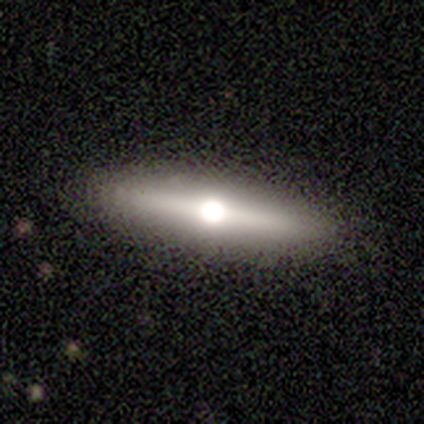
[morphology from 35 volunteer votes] A featured or disk galaxy (63%) viewed edge-on (100%) with a rounded central bulge (95%).

Vote fractions:
- Smooth or featured? featured or disk: 63% / smooth: 31% / star or artifact: 6%
- Edge-on disk? yes: 100% / no: 0%
- Edge-on bulge? rounded: 95% / none: 5% / boxy: 0%
- Merging? none: 94% / minor disturbance: 3% / major disturbance: 3% / merger: 0%